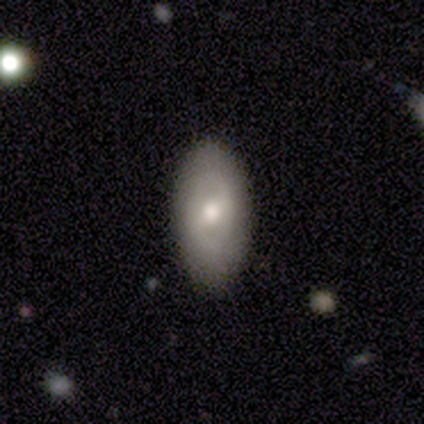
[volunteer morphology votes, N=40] smooth_or_featured: smooth (p=0.45) [alt: featured or disk p=0.42]
how_rounded: in between (p=0.94) [alt: cigar-shaped p=0.06]
merging: none (p=0.86) [alt: minor disturbance p=0.14]